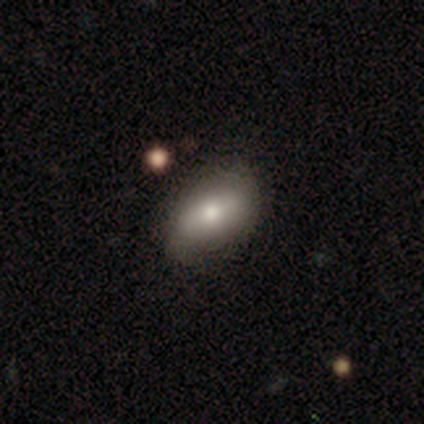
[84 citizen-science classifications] This appears to be a smooth galaxy with no disk features (68%) that is in between round and cigar-shaped (95%). Merging: none (68%).